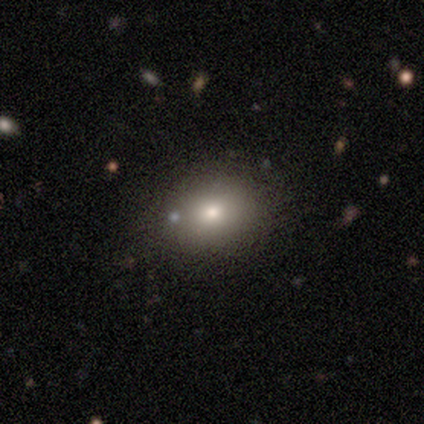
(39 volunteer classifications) Q: Smooth or featured?
A: smooth (79%); runner-up: featured or disk (10%)
Q: How rounded?
A: in between (58%); runner-up: round (42%)
Q: Merging?
A: none (83%); runner-up: minor disturbance (14%)